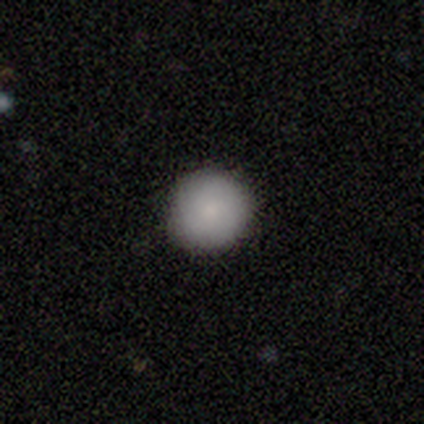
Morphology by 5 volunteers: smooth_or_featured: smooth (p=1.00)
how_rounded: round (p=1.00)
merging: none (p=1.00)